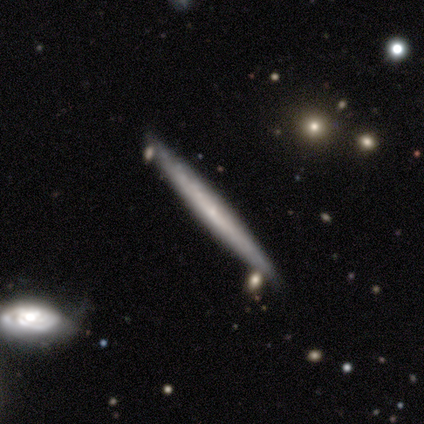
featured or disk 57%, smooth 39%, star or artifact 4%. Down the decision tree: edge-on disk — yes (96%); edge-on bulge — none (78%); merging — none (84%).